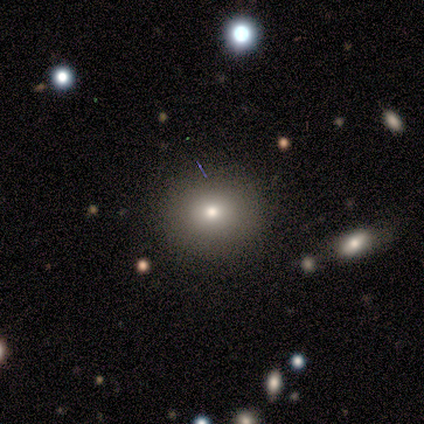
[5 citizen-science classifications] Smooth or featured: smooth — 60% (featured or disk — 40%)
How rounded: round — 100%
Merging: none — 100%